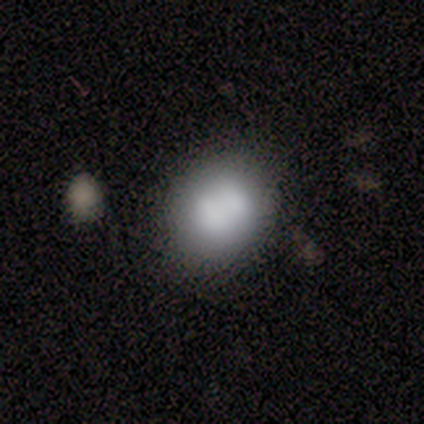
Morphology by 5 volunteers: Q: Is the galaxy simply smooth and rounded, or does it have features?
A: smooth — 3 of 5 (60%).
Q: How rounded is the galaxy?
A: in between — 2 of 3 (67%).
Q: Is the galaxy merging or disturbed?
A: none — 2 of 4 (50%, tied with merger).